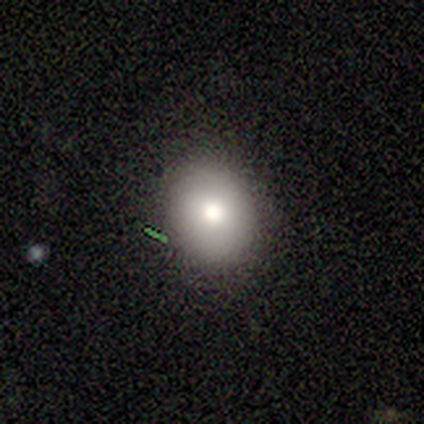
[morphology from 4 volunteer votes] smooth 75%, featured or disk 25%, star or artifact 0%. Down the decision tree: how rounded — round (67%); merging — none (75%).